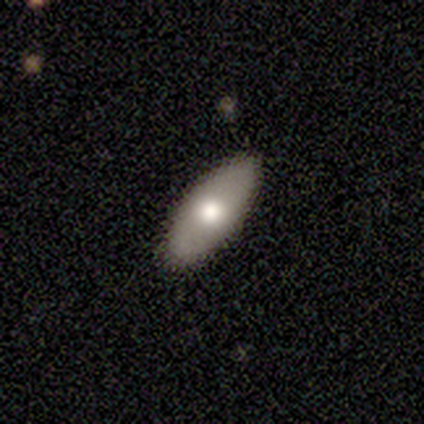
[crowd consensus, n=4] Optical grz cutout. It shows a smooth galaxy with no disk features (75%) that is in between round and cigar-shaped (100%). Merging: none (75%).